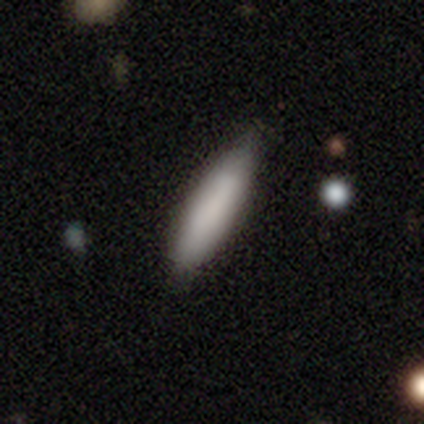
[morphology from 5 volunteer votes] A smooth galaxy with no disk features (100%) that is in between round and cigar-shaped (60%).

Vote fractions:
- Smooth or featured? smooth: 100% / featured or disk: 0% / star or artifact: 0%
- How rounded? in between: 60% / cigar-shaped: 40% / round: 0%
- Merging? none: 100% / minor disturbance: 0% / major disturbance: 0% / merger: 0%